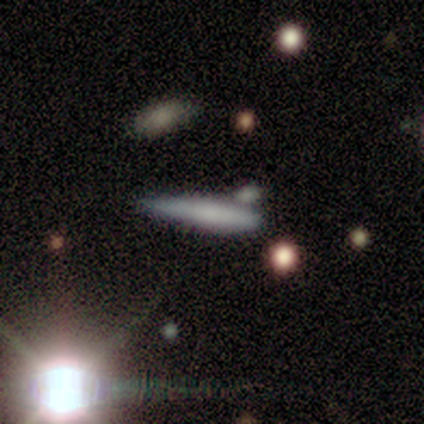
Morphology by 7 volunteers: Smooth or featured? smooth (86%)
How rounded? cigar-shaped (100%)
Merging? minor disturbance (71%)